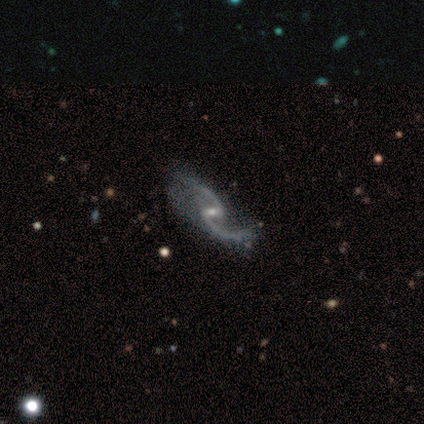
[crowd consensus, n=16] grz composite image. It shows a featured or disk galaxy (94%) with a weak bar (80%), 2 (87%) loose (87%) spiral arms (100%) and a small central bulge (67%). Merging: none (73%).